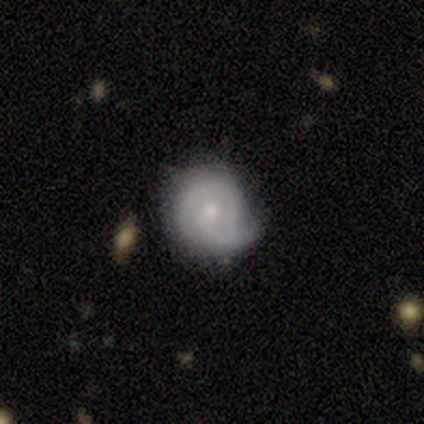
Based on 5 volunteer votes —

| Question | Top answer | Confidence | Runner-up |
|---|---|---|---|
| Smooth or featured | featured or disk | 100% | — |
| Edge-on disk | no | 100% | — |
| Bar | no | 60% | weak (40%) |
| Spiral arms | yes | 100% | — |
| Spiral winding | medium | 60% | tight (20%) |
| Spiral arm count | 2 | 60% | 1 (20%) |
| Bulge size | small | 60% | moderate (20%) |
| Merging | minor disturbance | 60% | none (40%) |